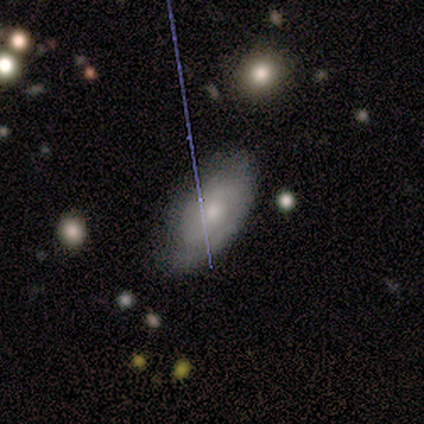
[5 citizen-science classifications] Smooth or featured? smooth (60%)
How rounded? in between (100%)
Merging? none (75%)